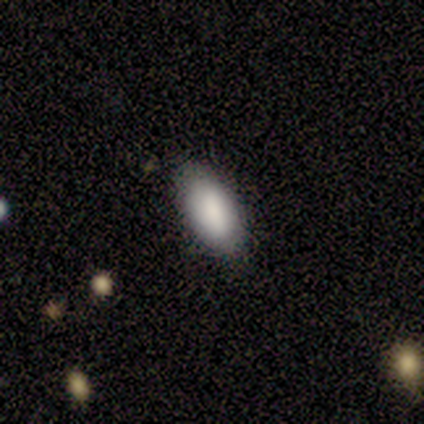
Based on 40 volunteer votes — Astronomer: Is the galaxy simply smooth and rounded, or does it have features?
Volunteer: smooth — 92%.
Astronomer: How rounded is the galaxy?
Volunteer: in between — 92%.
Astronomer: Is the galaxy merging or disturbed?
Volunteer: none — 90%.